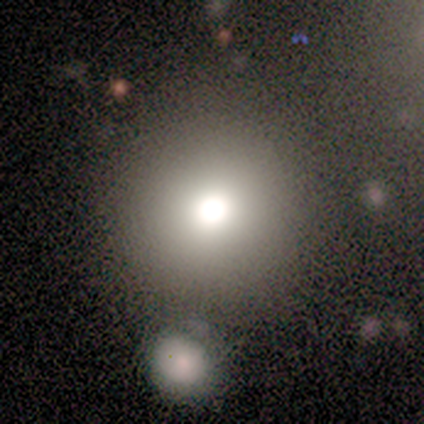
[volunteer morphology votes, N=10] type=smooth (70%); roundness=round (100%); merging=none (100%).